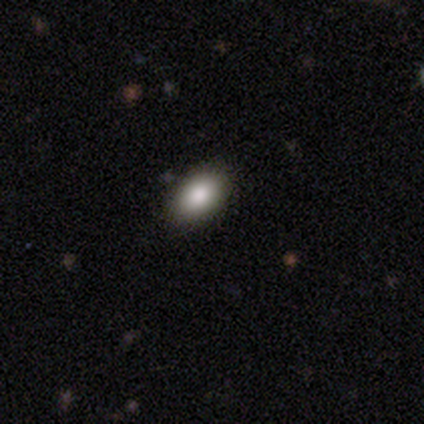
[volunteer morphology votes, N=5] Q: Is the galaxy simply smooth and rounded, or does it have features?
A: smooth — 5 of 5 (100%).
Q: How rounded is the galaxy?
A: in between — 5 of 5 (100%).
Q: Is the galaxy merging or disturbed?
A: none — 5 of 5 (100%).